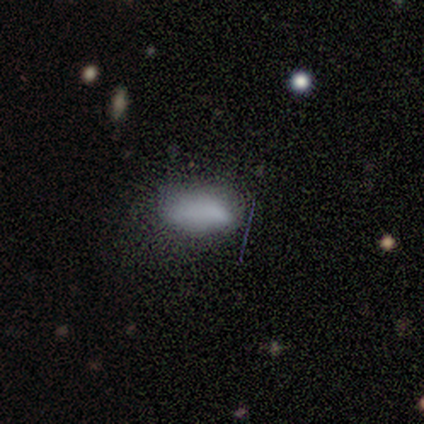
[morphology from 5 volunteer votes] smooth 100%, featured or disk 0%, star or artifact 0%. Down the decision tree: how rounded — in between (100%); merging — none (60%).